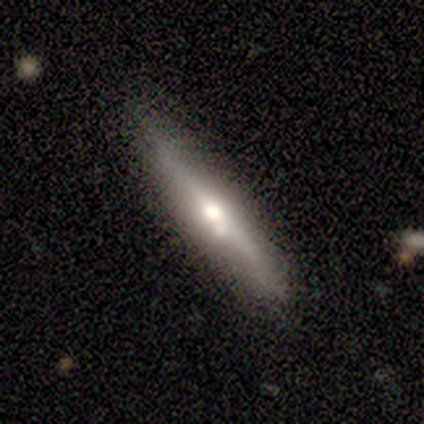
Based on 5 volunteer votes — This appears to be a featured or disk galaxy (80%) viewed edge-on (100%) with a rounded central bulge (75%). Merging: none (80%).